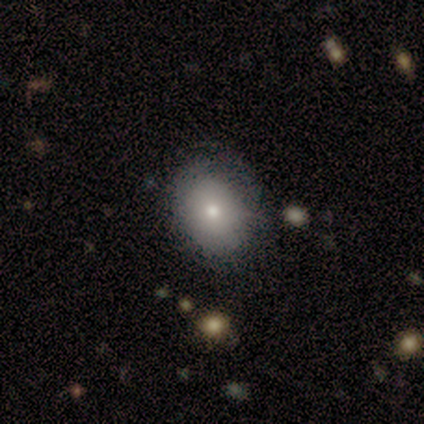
Morphology: type=smooth (60%); roundness=in between (67%); merging=none (75%).